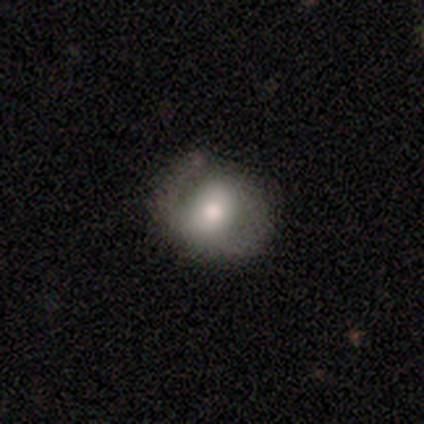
Smooth or featured: featured or disk — 52% (smooth — 38%)
Edge-on disk: no — 92% (yes — 8%)
Bar: no — 70% (weak — 20%)
Spiral arms: yes — 66% (no — 34%)
Spiral winding: medium — 45% (tight — 28%)
Spiral arm count: 2 — 76% (1 — 17%)
Bulge size: moderate — 64% (small — 18%)
Merging: none — 61% (minor disturbance — 30%)